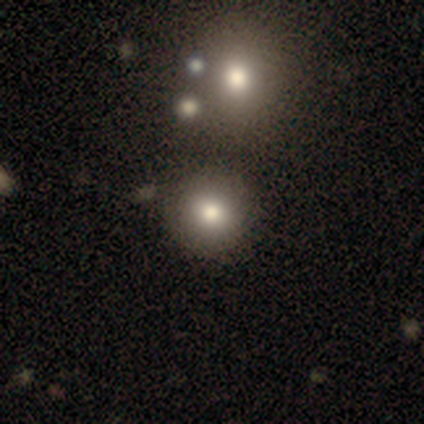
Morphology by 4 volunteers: Smooth or featured?
  - smooth: 100% *
  - featured or disk: 0%
  - star or artifact: 0%
How rounded?
  - round: 100% *
  - in between: 0%
  - cigar-shaped: 0%
Merging?
  - none: 100% *
  - minor disturbance: 0%
  - major disturbance: 0%
  - merger: 0%